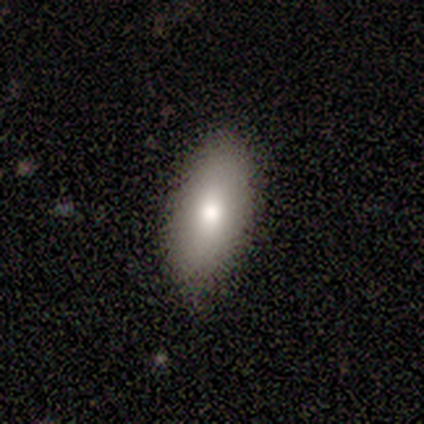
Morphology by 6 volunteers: This is clearly a smooth galaxy (100%). How rounded: clearly in between (83%). Merging: likely none (67%).